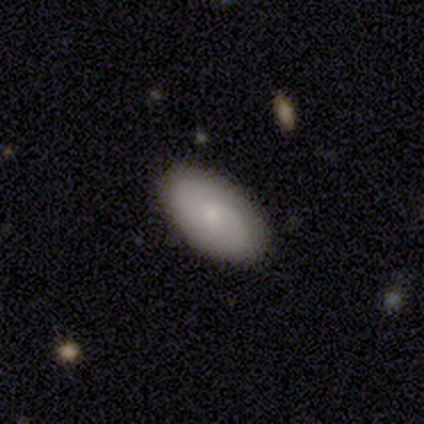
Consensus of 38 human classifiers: Overall: smooth (74%). How rounded: in between (96%). Merging: none (79%).